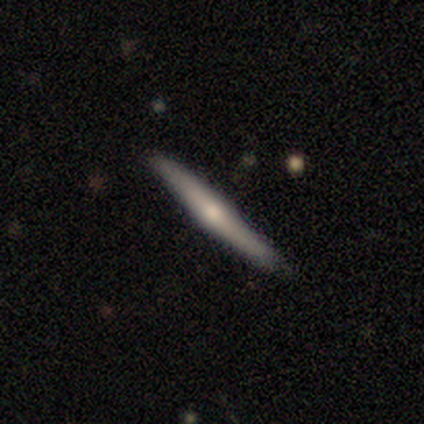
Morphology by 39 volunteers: smooth_or_featured: featured or disk (p=0.74) [alt: smooth p=0.26]
disk_edge_on: yes (p=0.93) [alt: no p=0.07]
edge_on_bulge: rounded (p=0.85) [alt: none p=0.15]
merging: none (p=0.92) [alt: minor disturbance p=0.05]